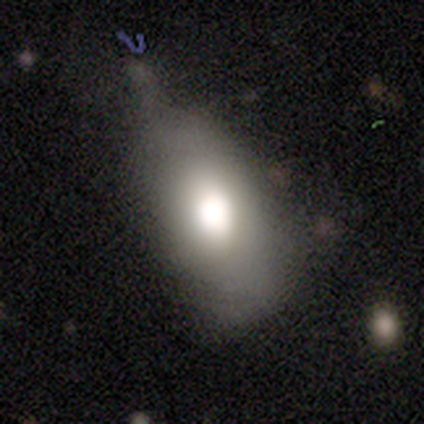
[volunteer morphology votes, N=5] Overall: smooth (80%). How rounded: in between (75%). Merging: none (40%, tied with minor disturbance).